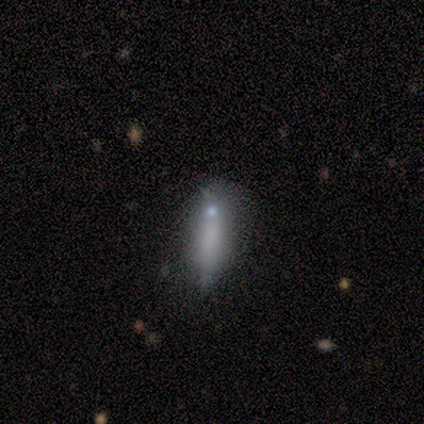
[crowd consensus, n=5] smooth-or-featured: smooth: 100% | featured or disk: 0% | star or artifact: 0%
  how-rounded: cigar-shaped: 60% | in between: 40% | round: 0%
  merging: none: 60% | minor disturbance: 20% | merger: 20% | major disturbance: 0%